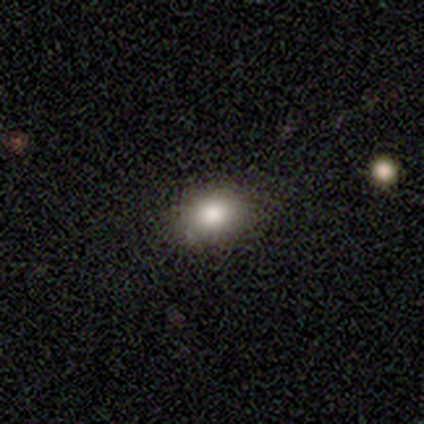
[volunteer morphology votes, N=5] Volunteers were most divided on "how rounded": in between: 60%, round: 20%, cigar-shaped: 20%. More confident: smooth or featured — smooth (100%); merging — none (80%).